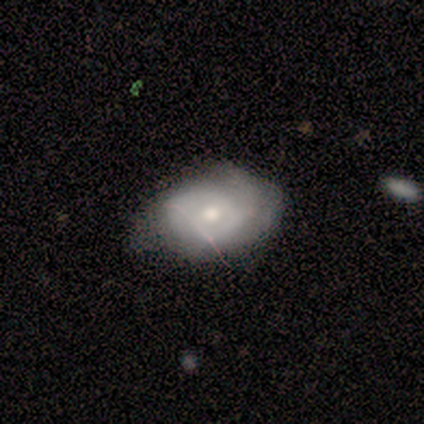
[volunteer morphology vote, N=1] smooth_or_featured: smooth (p=1.00)
how_rounded: in between (p=1.00)
merging: minor disturbance (p=1.00)